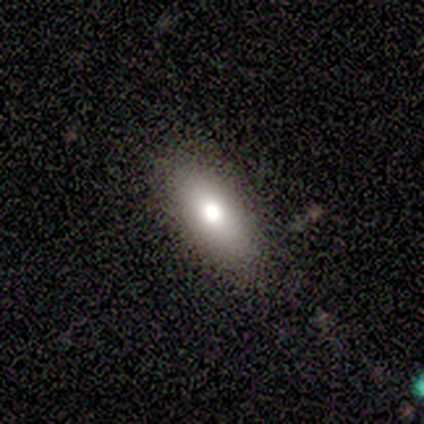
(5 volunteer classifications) Smooth or featured?
  - smooth: 80% *
  - star or artifact: 20%
  - featured or disk: 0%
How rounded?
  - in between: 75% *
  - cigar-shaped: 25%
  - round: 0%
Merging?
  - none: 100% *
  - minor disturbance: 0%
  - major disturbance: 0%
  - merger: 0%